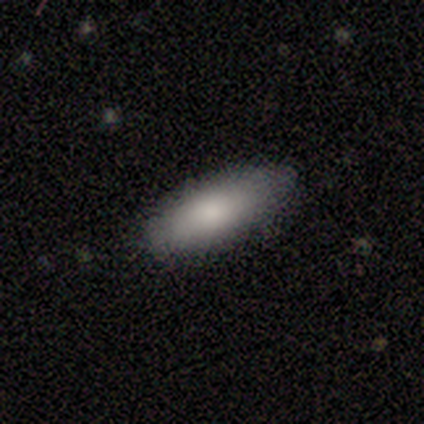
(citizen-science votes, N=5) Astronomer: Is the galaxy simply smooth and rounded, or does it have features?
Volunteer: smooth — 100%.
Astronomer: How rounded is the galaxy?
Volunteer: cigar-shaped — 60% (runner-up: in between, 40%).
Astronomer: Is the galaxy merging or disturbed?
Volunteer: none — 100%.